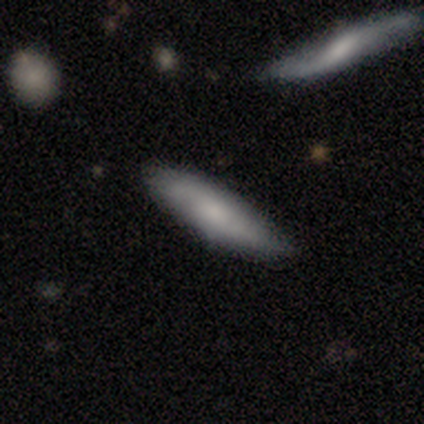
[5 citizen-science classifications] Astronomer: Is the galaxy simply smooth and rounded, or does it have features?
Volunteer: smooth — 80%.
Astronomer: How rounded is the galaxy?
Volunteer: in between — 75%.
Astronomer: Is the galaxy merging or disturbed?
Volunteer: none — 80%.